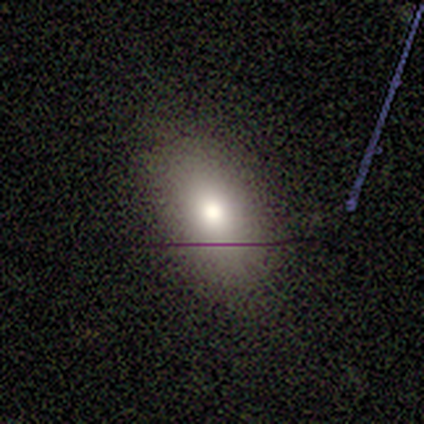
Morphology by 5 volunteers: This is likely a smooth galaxy (60%). How rounded: clearly in between (100%). Merging: clearly none (80%).